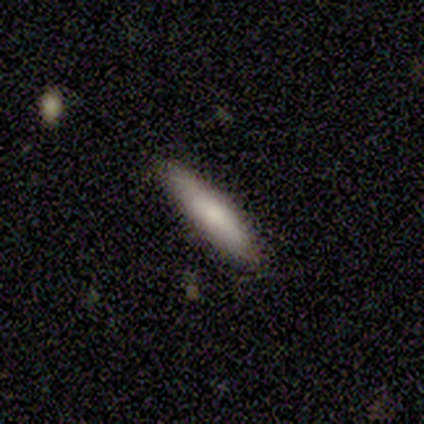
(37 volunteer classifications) smooth-or-featured: smooth: 73% | featured or disk: 22% | star or artifact: 5%
  how-rounded: cigar-shaped: 81% | in between: 19% | round: 0%
  merging: none: 83% | minor disturbance: 17% | major disturbance: 0% | merger: 0%